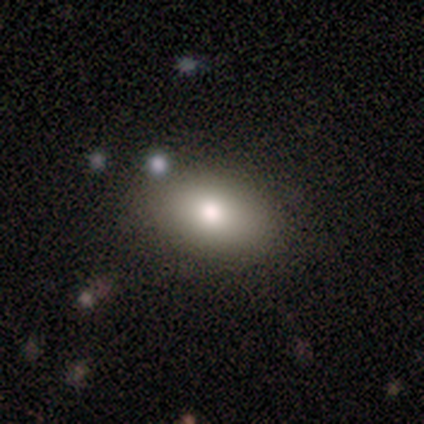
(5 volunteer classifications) smooth 100%, featured or disk 0%, star or artifact 0%. Down the decision tree: how rounded — in between (100%); merging — none (100%).